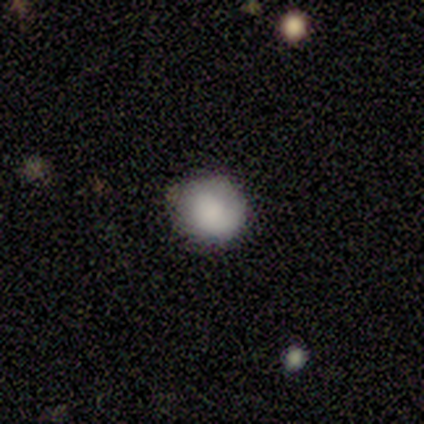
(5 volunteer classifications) Volunteers were most divided on "how rounded": round: 80%, in between: 20%, cigar-shaped: 0%. More confident: smooth or featured — smooth (100%); merging — none (100%).